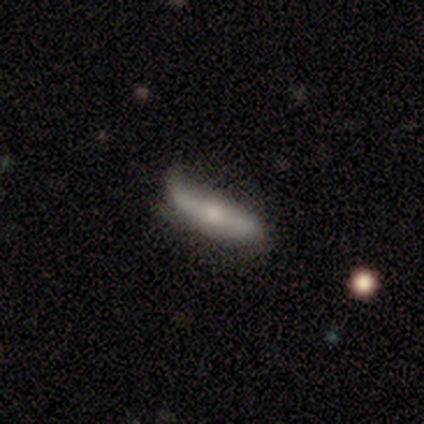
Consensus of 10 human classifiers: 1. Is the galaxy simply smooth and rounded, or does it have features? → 50% featured or disk, 40% smooth, 10% star or artifact.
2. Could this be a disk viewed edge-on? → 60% yes, 40% no.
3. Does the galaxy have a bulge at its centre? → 100% rounded, 0% boxy, 0% none.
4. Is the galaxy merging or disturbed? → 67% none, 22% minor disturbance, 11% merger, 0% major disturbance.